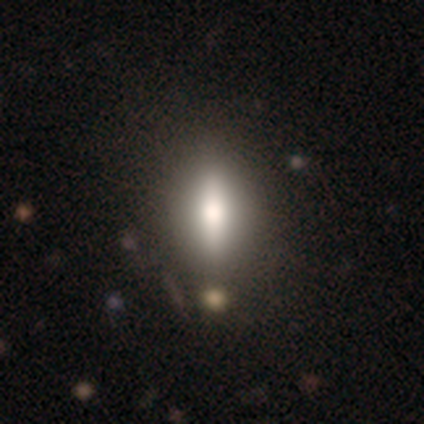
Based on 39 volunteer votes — Smooth or featured? 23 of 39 (59%) said smooth. How rounded? 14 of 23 (61%) said in between. Merging? 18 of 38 (47%) said none.